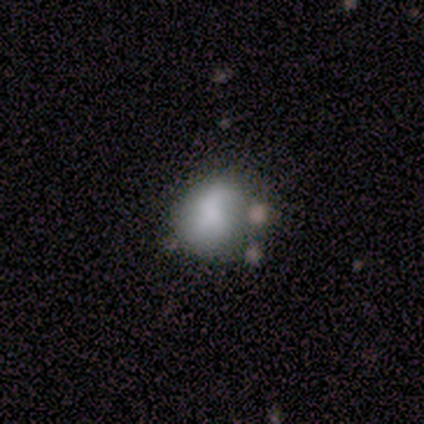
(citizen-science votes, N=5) Smooth or featured? 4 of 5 (80%) said smooth. How rounded? 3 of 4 (75%) said round. Merging? 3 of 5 (60%) said minor disturbance.